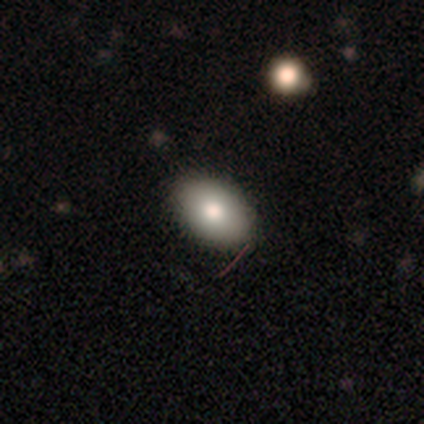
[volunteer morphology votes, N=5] Overall: smooth (80%). How rounded: in between (100%). Merging: none (100%).